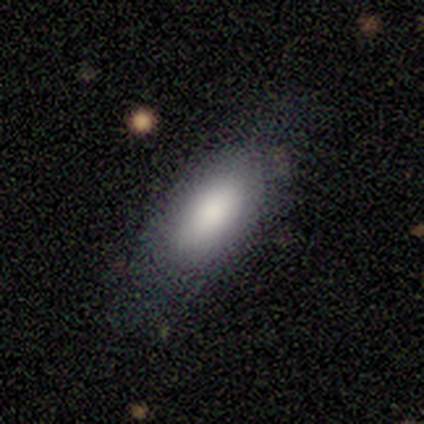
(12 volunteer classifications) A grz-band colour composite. It shows a smooth galaxy with no disk features (75%) that is in between round and cigar-shaped (100%). Merging: none (58%).